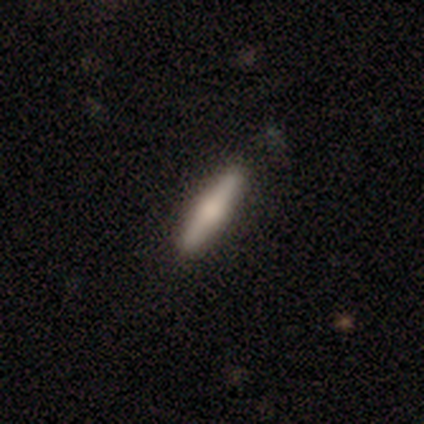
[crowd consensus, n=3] Morphology: type=smooth (67%); roundness=cigar-shaped (100%); merging=none (100%).